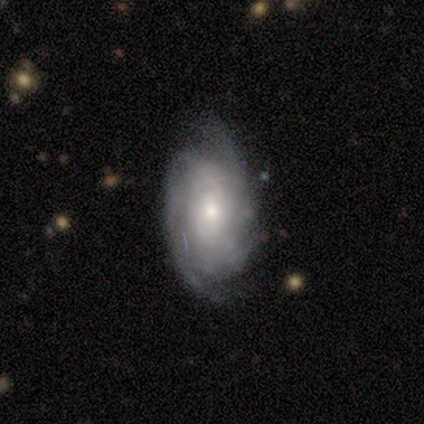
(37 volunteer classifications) Morphology: type=featured or disk (78%); edge-on=no (97%); bar=no (61%); spiral arms=yes (89%); winding=tight (48%); arm count=can't tell (60%); bulge=small (61%); merging=none (68%).